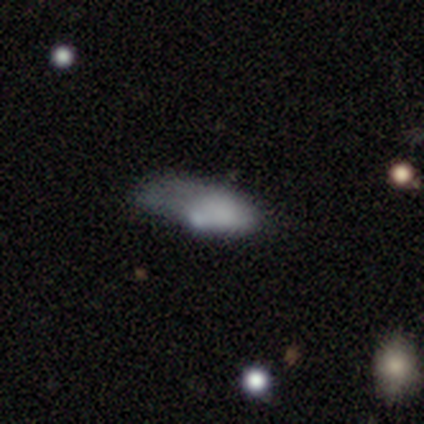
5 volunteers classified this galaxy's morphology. smooth 80%, star or artifact 20%, featured or disk 0%. Down the decision tree: how rounded — in between (100%); merging — minor disturbance (50%, tied with major disturbance).